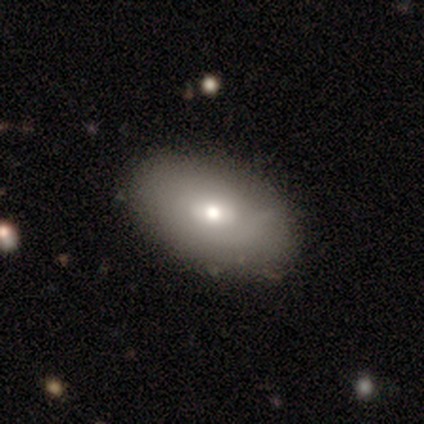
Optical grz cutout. It shows a smooth galaxy with no disk features (66%) that is in between round and cigar-shaped (93%). Merging: none (88%).